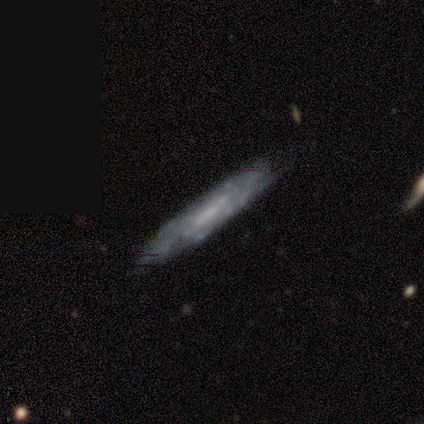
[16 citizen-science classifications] This is likely a featured or disk galaxy (69%). It is possibly not viewed edge-on (55%). Bar: possibly weak (50%, tied with no). Spiral arm pattern: clearly no (83%). Central bulge: likely small (67%). Merging: likely none (75%).